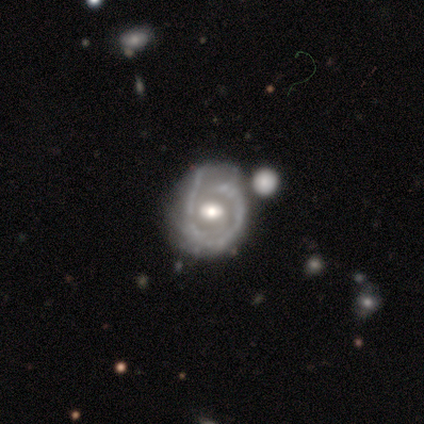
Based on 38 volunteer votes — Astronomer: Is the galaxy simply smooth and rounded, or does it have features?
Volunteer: featured or disk — 82%.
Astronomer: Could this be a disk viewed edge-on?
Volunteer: no — 97%.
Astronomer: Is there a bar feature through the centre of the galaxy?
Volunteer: no — 57%.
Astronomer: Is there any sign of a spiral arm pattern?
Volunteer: yes — 77%.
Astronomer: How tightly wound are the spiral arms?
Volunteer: tight — 48% (runner-up: medium, 30%).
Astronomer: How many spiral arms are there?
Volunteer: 1 — 39% (runner-up: can't tell, 30%).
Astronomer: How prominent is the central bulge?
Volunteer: moderate — 67%.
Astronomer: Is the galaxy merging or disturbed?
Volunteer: none — 42% (runner-up: minor disturbance, 31%).